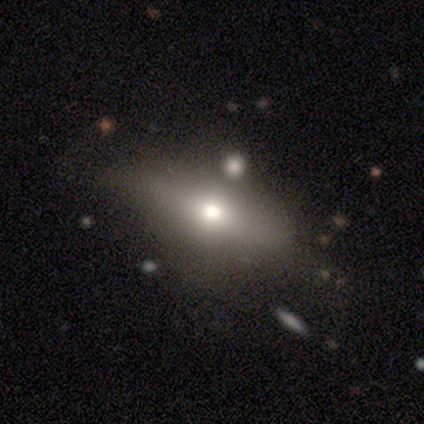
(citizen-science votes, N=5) smooth 60%, star or artifact 40%, featured or disk 0%. Down the decision tree: how rounded — round (33%, tied with in between and cigar-shaped); merging — none (33%, tied with minor disturbance and major disturbance).